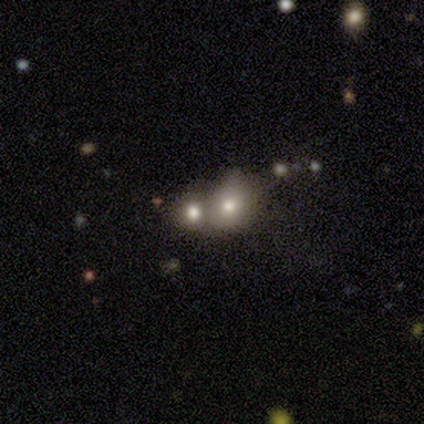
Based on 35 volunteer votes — smooth_or_featured: smooth (p=0.60) [alt: featured or disk p=0.23]
how_rounded: round (p=0.67) [alt: in between p=0.29]
merging: merger (p=0.55) [alt: none p=0.24]